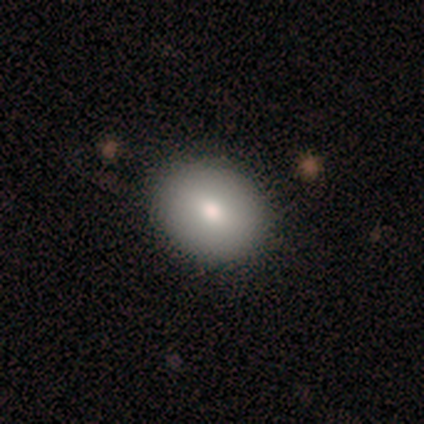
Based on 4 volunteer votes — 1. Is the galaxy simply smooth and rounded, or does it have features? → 75% smooth, 25% star or artifact, 0% featured or disk.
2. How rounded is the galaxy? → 67% in between, 33% round, 0% cigar-shaped.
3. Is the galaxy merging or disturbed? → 100% none, 0% minor disturbance, 0% major disturbance, 0% merger.